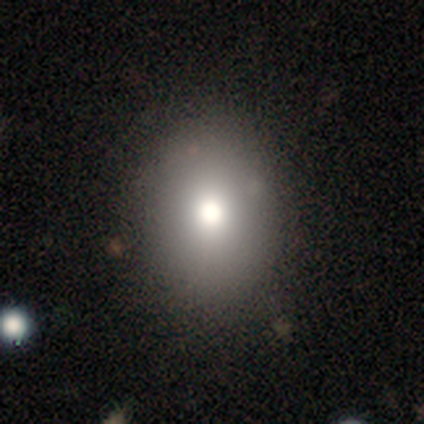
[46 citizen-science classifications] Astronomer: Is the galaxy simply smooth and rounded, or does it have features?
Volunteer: smooth — 80%.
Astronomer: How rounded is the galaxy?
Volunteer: round — 54% (runner-up: in between, 46%).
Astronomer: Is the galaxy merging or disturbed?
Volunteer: none — 90%.